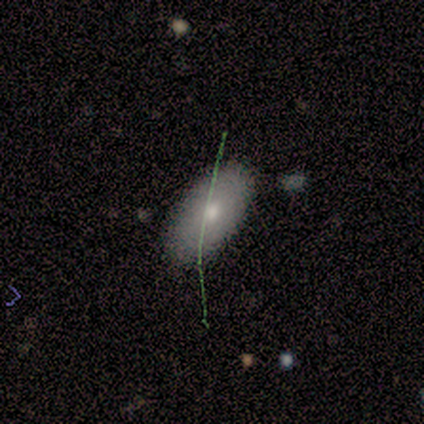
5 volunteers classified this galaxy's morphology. Smooth or featured? featured or disk (60%)
Edge-on disk? no (67%)
Bar? no (100%)
Spiral arms? no (100%)
Bulge size? moderate (100%)
Merging? none (40%, tied with minor disturbance)